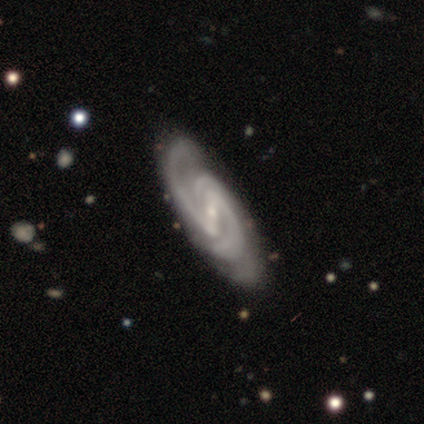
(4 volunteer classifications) featured or disk 100%, smooth 0%, star or artifact 0%. Down the decision tree: edge-on disk — no (100%); bar — strong (50%); spiral arms — yes (100%); spiral arm count — 2 (50%); spiral winding — medium (75%); bulge size — small (100%); merging — none (75%).